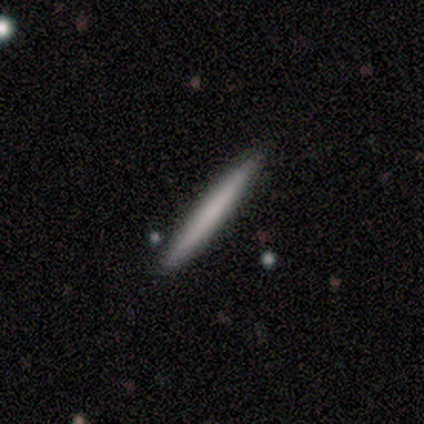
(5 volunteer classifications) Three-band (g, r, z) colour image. It shows a smooth galaxy with no disk features (60%) that is cigar-shaped (100%). Merging: none (100%).